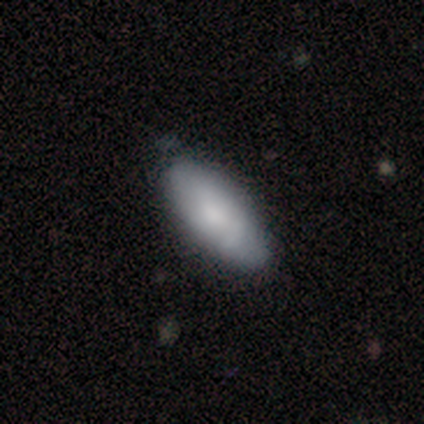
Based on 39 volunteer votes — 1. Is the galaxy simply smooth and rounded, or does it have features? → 69% smooth, 21% featured or disk, 10% star or artifact.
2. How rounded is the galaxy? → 85% in between, 7% round, 7% cigar-shaped.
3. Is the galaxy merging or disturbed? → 60% none, 6% minor disturbance, 6% merger, 0% major disturbance.